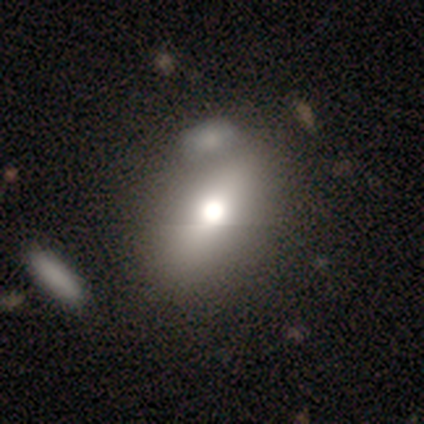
Smooth or featured? smooth (60%)
How rounded? in between (89%)
Merging? none (67%)